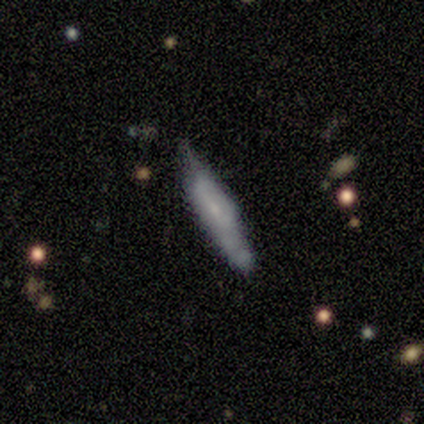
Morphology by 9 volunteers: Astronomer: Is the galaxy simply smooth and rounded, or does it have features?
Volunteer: smooth — 56% (runner-up: featured or disk, 44%).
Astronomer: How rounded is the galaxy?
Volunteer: cigar-shaped — 80%.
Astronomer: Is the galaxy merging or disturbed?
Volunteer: none — 44% (runner-up: minor disturbance, 33%).